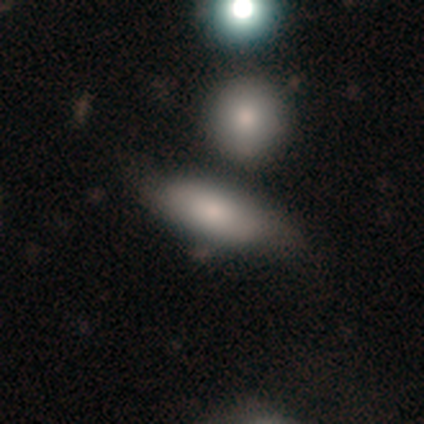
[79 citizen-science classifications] A smooth galaxy with no disk features (78%) that is in between round and cigar-shaped (77%). Merging: none (34%).